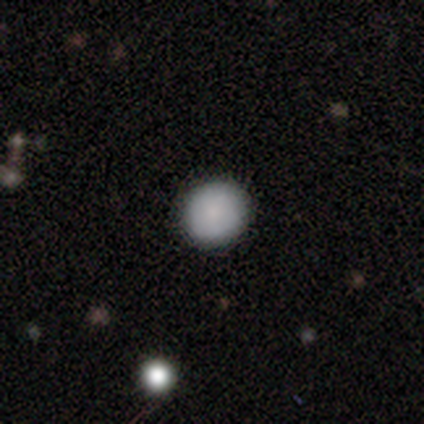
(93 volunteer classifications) Smooth or featured? smooth (83%)
How rounded? round (92%)
Merging? none (94%)